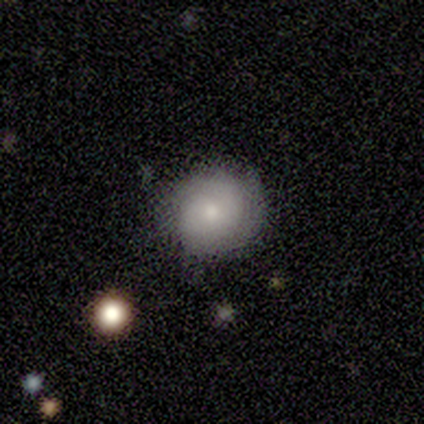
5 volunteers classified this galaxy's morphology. Smooth or featured?
  - smooth: 80% *
  - featured or disk: 20%
  - star or artifact: 0%
How rounded?
  - round: 100% *
  - in between: 0%
  - cigar-shaped: 0%
Merging?
  - none: 60% *
  - minor disturbance: 40%
  - major disturbance: 0%
  - merger: 0%